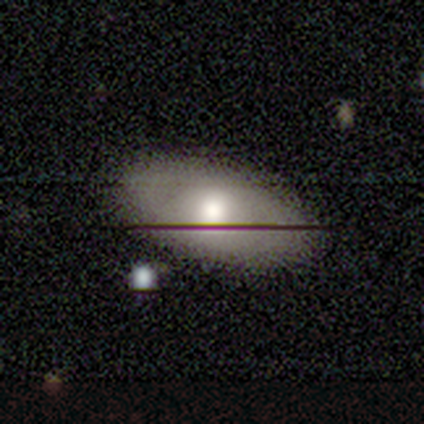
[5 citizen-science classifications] This appears to be a smooth galaxy with no disk features (60%) that is in between round and cigar-shaped (67%). Merging: none (100%).